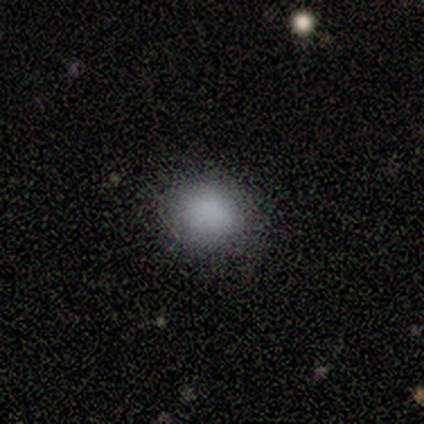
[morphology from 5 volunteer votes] Smooth or featured?
  - smooth: 80% *
  - star or artifact: 20%
  - featured or disk: 0%
How rounded?
  - round: 50% * (tied)
  - in between: 50% * (tied)
  - cigar-shaped: 0%
Merging?
  - none: 100% *
  - minor disturbance: 0%
  - major disturbance: 0%
  - merger: 0%